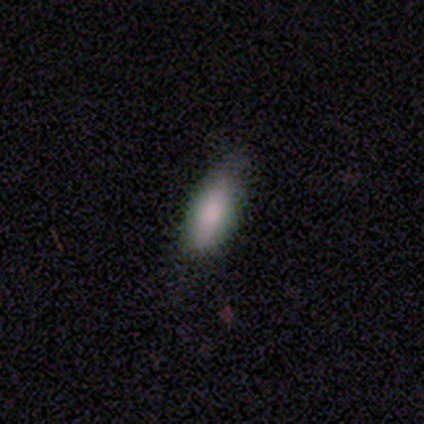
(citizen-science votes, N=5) smooth_or_featured: smooth (p=1.00)
how_rounded: in between (p=0.80) [alt: cigar-shaped p=0.20]
merging: none (p=0.60) [alt: minor disturbance p=0.40]